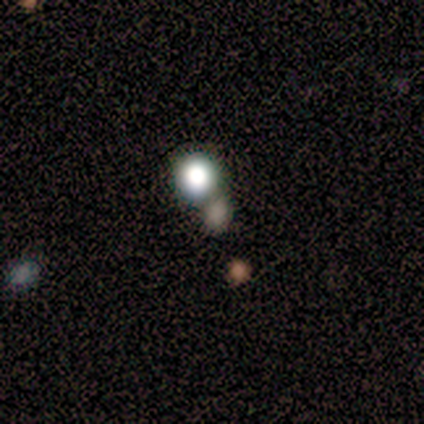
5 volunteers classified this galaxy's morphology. Overall: smooth (60%; star or artifact 40%). How rounded: in between (67%; round 33%). Merging: none (67%; merger 33%).